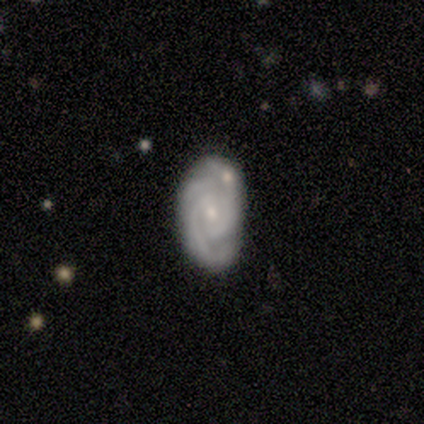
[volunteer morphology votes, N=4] smooth-or-featured: featured or disk: 100% | smooth: 0% | star or artifact: 0%
  disk-edge-on: no: 100% | yes: 0%
    bar: no: 100% | strong: 0% | weak: 0%
    has-spiral-arms: yes: 100% | no: 0%
      spiral-winding: tight: 50% (tied) | medium: 50% (tied) | loose: 0%
      spiral-arm-count: 2: 75% | 3: 25% | 1: 0% | 4: 0% | more than 4: 0% | can't tell: 0%
    bulge-size: small: 75% | moderate: 25% | dominant: 0% | large: 0% | none: 0%
  merging: none: 75% | merger: 25% | minor disturbance: 0% | major disturbance: 0%